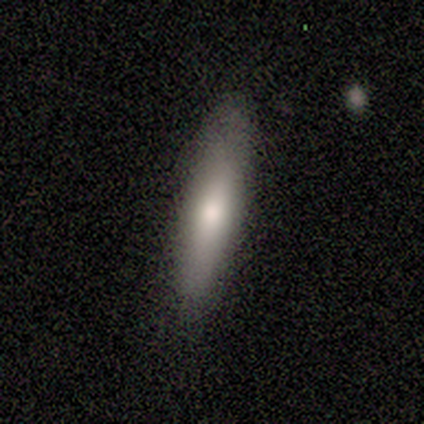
smooth 80%, featured or disk 10%, star or artifact 10%. Down the decision tree: how rounded — cigar-shaped (88%); merging — none (78%).